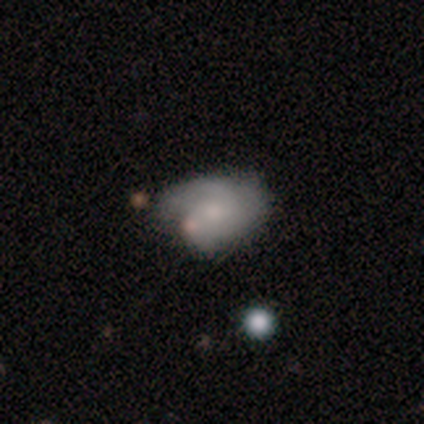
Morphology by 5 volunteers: A featured or disk galaxy (60%) with no bar (100%), 3 (50%, tied with can't tell) tight (100%) spiral arms (67%) and a moderate central bulge (67%). Merging: minor disturbance (50%).